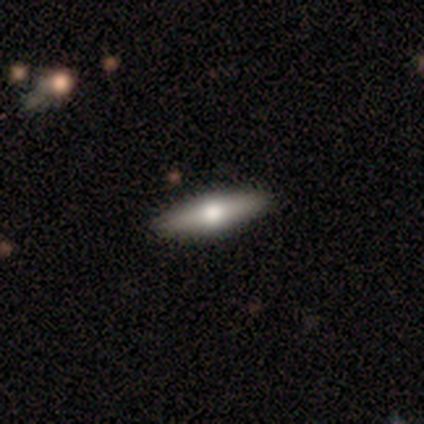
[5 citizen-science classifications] A featured or disk galaxy (60%) viewed edge-on (67%) with a rounded central bulge (100%).

Vote fractions:
- Smooth or featured? featured or disk: 60% / smooth: 40% / star or artifact: 0%
- Edge-on disk? yes: 67% / no: 33%
- Edge-on bulge? rounded: 100% / boxy: 0% / none: 0%
- Merging? none: 100% / minor disturbance: 0% / major disturbance: 0% / merger: 0%